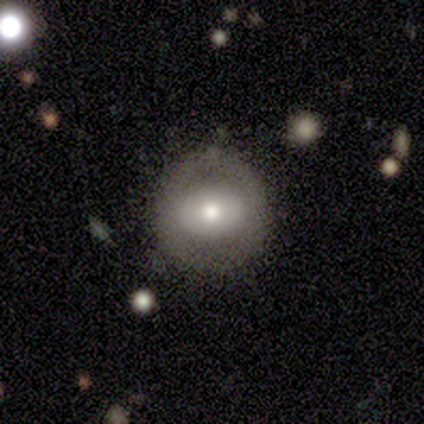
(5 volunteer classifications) Overall: smooth (80%). How rounded: round (75%). Merging: none (100%).